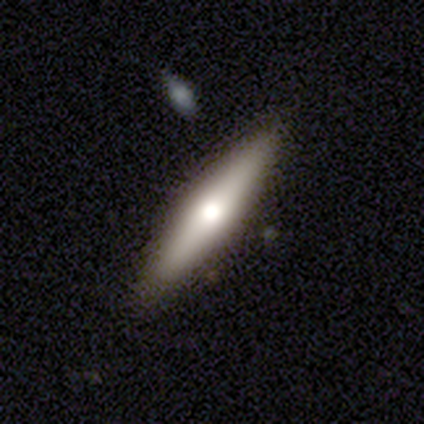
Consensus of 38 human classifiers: smooth 50% (tied), featured or disk 50% (tied), star or artifact 0%. Down the decision tree: how rounded — cigar-shaped (89%); merging — none (89%).